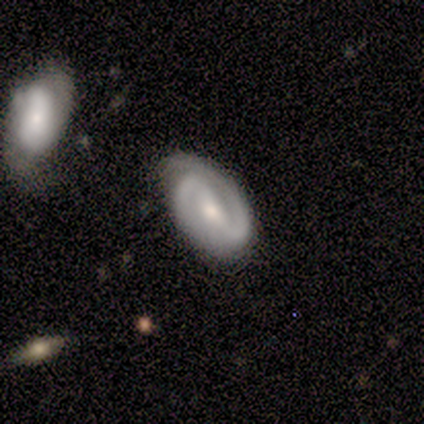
Smooth or featured?
  - featured or disk: 100% *
  - smooth: 0%
  - star or artifact: 0%
Edge-on disk?
  - no: 100% *
  - yes: 0%
Bar?
  - strong: 57% *
  - no: 29%
  - weak: 14%
Spiral arms?
  - yes: 100% *
  - no: 0%
Spiral winding?
  - tight: 86% *
  - medium: 14%
  - loose: 0%
Spiral arm count?
  - 2: 100% *
  - 1: 0%
  - 3: 0%
  - 4: 0%
  - more than 4: 0%
  - can't tell: 0%
Bulge size?
  - small: 71% *
  - moderate: 29%
  - dominant: 0%
  - large: 0%
  - none: 0%
Merging?
  - none: 71% *
  - minor disturbance: 29%
  - major disturbance: 0%
  - merger: 0%